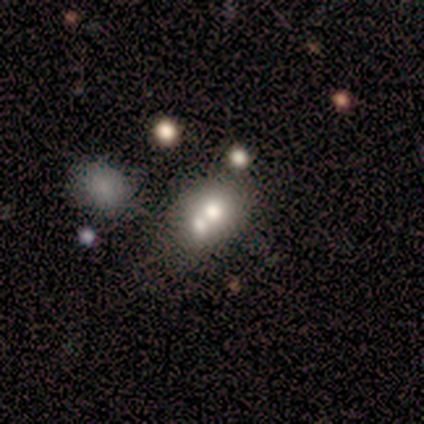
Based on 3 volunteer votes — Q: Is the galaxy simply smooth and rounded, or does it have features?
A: smooth — 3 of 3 (100%).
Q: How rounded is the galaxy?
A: in between — 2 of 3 (67%).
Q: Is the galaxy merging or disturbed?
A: merger — 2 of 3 (67%).